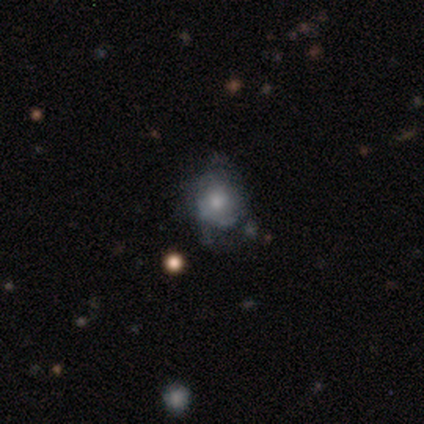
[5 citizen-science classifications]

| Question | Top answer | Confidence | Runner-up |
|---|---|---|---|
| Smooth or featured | featured or disk | 60% | smooth (40%) |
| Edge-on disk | no | 100% | — |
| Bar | no | 67% | weak (33%) |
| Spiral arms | no | 100% | — |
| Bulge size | small | 67% | moderate (33%) |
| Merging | minor disturbance | 60% | major disturbance (40%) |